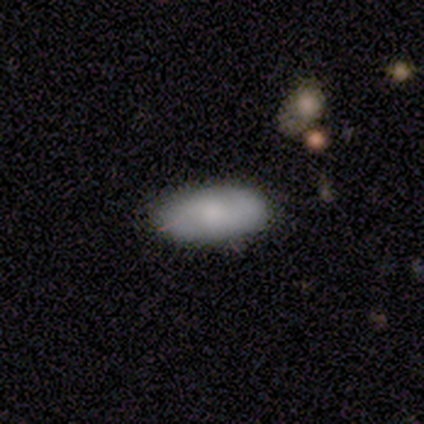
Q: Smooth or featured?
A: smooth (71%); runner-up: featured or disk (26%)
Q: How rounded?
A: in between (93%); runner-up: cigar-shaped (7%)
Q: Merging?
A: none (84%); runner-up: minor disturbance (8%)